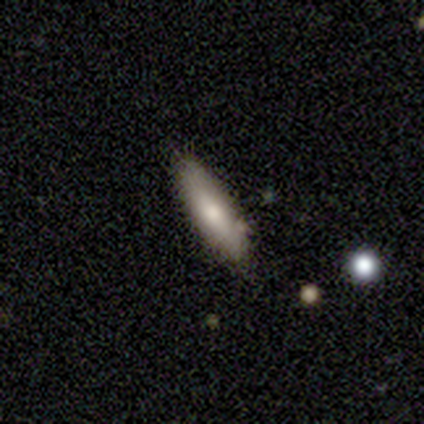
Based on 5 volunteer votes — featured or disk 40% (tied), star or artifact 40% (tied), smooth 20%. Down the decision tree: edge-on disk — yes (50%, tied with no); edge-on bulge — rounded (100%); merging — none (67%).